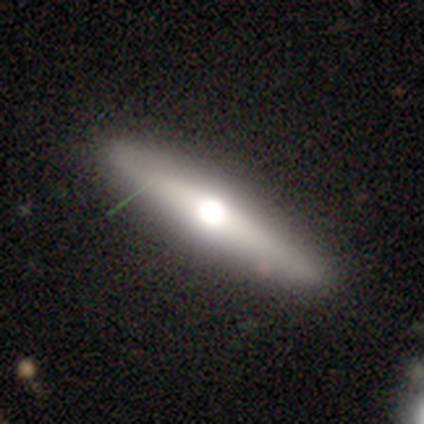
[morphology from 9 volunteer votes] This appears to be a smooth galaxy with no disk features (78%) that is cigar-shaped (100%). Merging: none (67%).